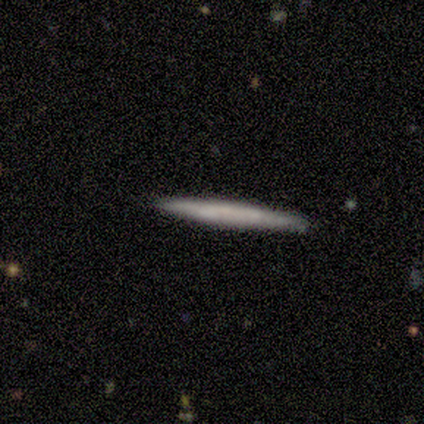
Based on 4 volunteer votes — This is likely a smooth galaxy (75%). How rounded: likely cigar-shaped (67%). Merging: clearly none (100%).